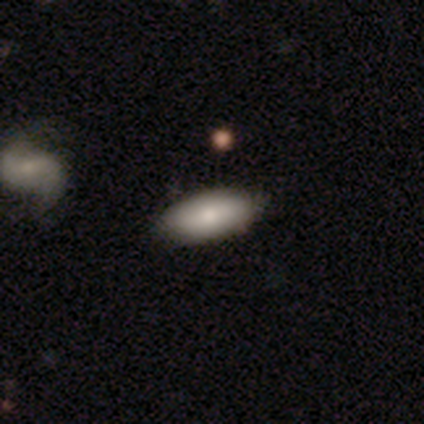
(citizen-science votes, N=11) A smooth galaxy with no disk features (91%) that is in between round and cigar-shaped (60%). Merging: none (100%).